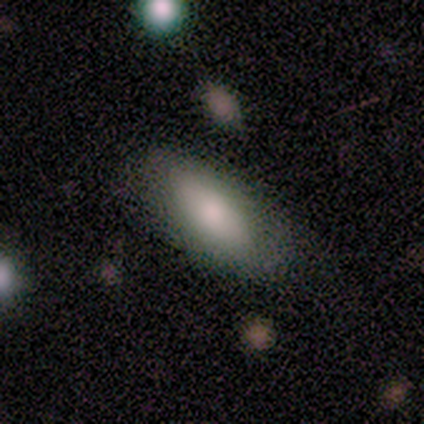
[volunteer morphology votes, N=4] A smooth galaxy with no disk features (50%, tied with featured or disk) that is in between round and cigar-shaped (100%). Merging: none (50%, tied with minor disturbance).